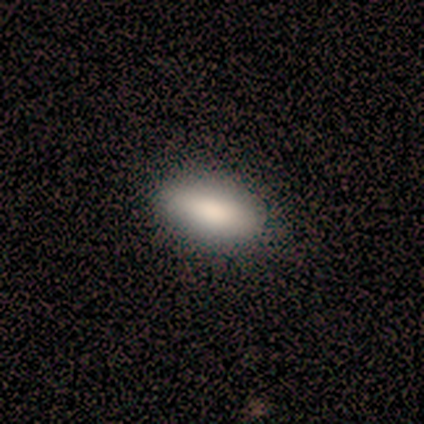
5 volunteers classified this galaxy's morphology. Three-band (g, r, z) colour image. It shows a smooth galaxy with no disk features (100%) that is in between round and cigar-shaped (100%). Merging: none (100%).